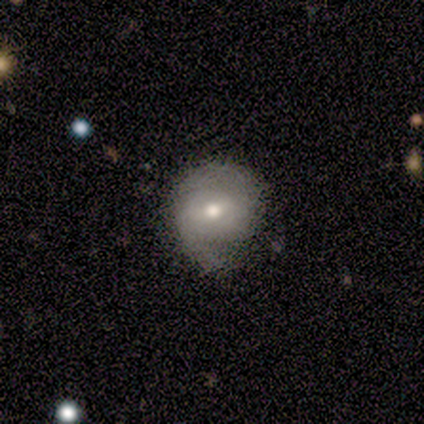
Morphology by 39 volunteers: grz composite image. It shows a featured or disk galaxy (54%) with a weak bar (67%), 2 (78%) medium (44%) spiral arms (86%) and a moderate central bulge (81%). Merging: none (65%).